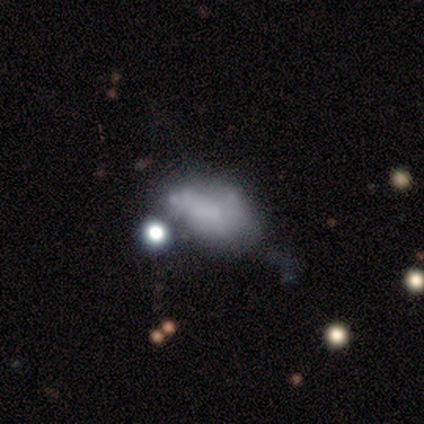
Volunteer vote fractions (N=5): A smooth galaxy with no disk features (60%) that is in between round and cigar-shaped (100%). Merging: merger (67%).